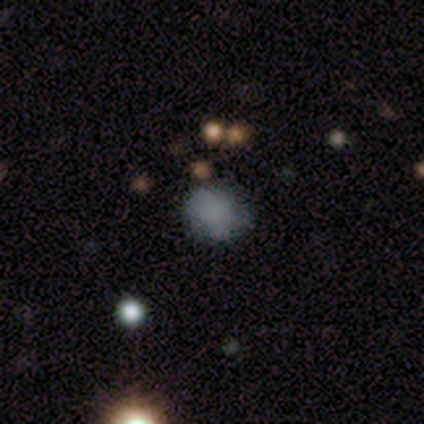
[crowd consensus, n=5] Smooth or featured? smooth (100%)
How rounded? round (100%)
Merging? none (100%)